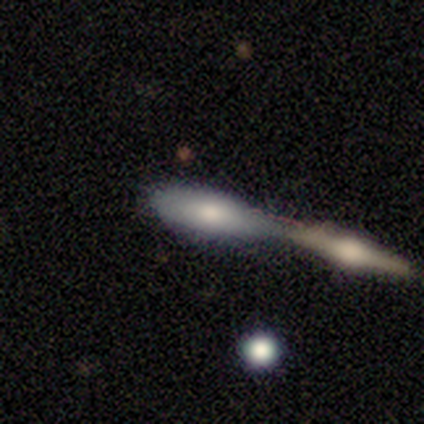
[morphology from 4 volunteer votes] Smooth or featured? 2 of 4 (50%, tied with featured or disk) said smooth. How rounded? 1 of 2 (50%, tied with cigar-shaped) said in between. Merging? 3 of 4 (75%) said merger.